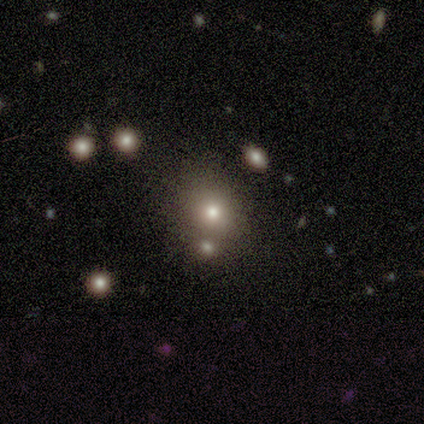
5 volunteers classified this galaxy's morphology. Smooth or featured? 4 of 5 (80%) said smooth. How rounded? 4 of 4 (100%) said round. Merging? 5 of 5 (100%) said none.